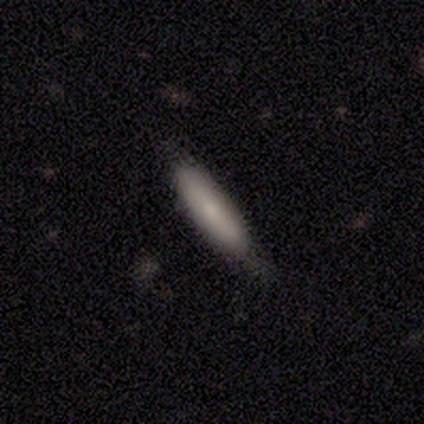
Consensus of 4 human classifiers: Smooth or featured?
  - smooth: 50% * (tied)
  - featured or disk: 50% * (tied)
  - star or artifact: 0%
How rounded?
  - cigar-shaped: 100% *
  - round: 0%
  - in between: 0%
Merging?
  - none: 75% *
  - major disturbance: 25%
  - minor disturbance: 0%
  - merger: 0%